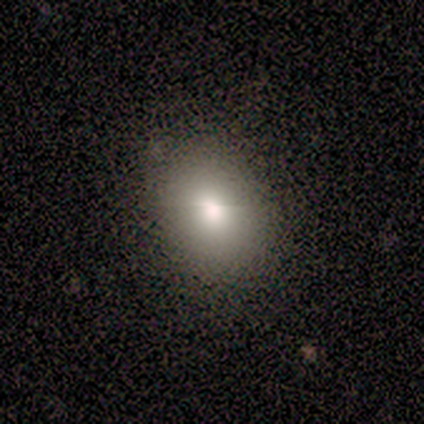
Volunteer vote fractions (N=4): A smooth galaxy with no disk features (75%) that is round (67%).

Vote fractions:
- Smooth or featured? smooth: 75% / star or artifact: 25% / featured or disk: 0%
- How rounded? round: 67% / in between: 33% / cigar-shaped: 0%
- Merging? none: 100% / minor disturbance: 0% / major disturbance: 0% / merger: 0%